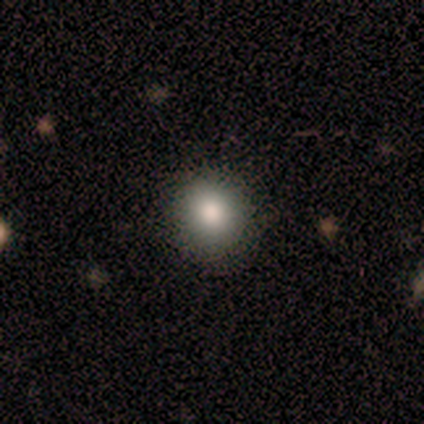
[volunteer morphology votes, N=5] smooth_or_featured: smooth (p=1.00)
how_rounded: round (p=1.00)
merging: none (p=1.00)